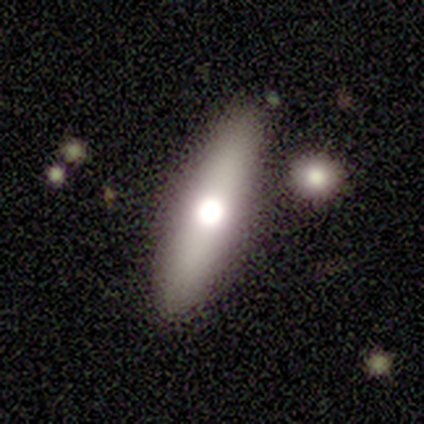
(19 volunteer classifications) This appears to be a smooth galaxy with no disk features (58%) that is cigar-shaped (55%). Merging: none (83%).